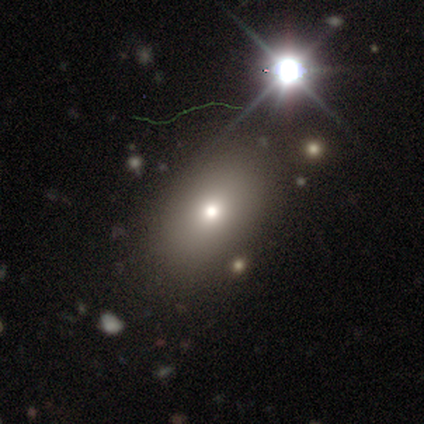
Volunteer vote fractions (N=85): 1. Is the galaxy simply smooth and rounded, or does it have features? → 59% smooth, 33% star or artifact, 8% featured or disk.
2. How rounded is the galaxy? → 86% in between, 14% round, 0% cigar-shaped.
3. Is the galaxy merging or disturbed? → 93% none, 7% minor disturbance, 0% major disturbance, 0% merger.